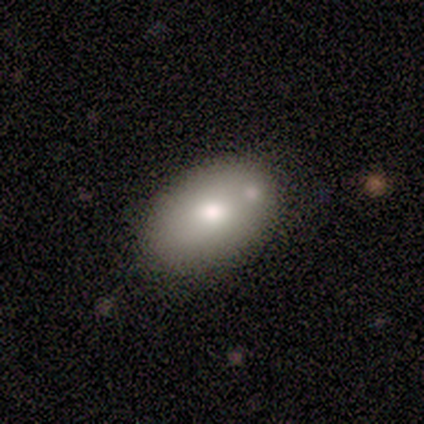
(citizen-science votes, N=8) smooth_or_featured: featured or disk (p=0.62) [alt: smooth p=0.38]
disk_edge_on: no (p=1.00)
bar: no (p=0.60) [alt: weak p=0.40]
has_spiral_arms: no (p=1.00)
bulge_size: moderate (p=0.80) [alt: small p=0.20]
merging: none (p=0.62) [alt: minor disturbance p=0.25]